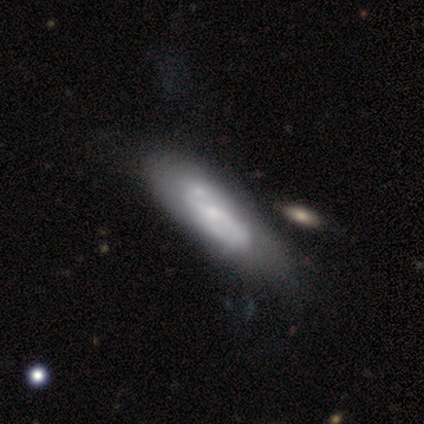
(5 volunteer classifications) This is clearly a featured or disk galaxy (80%). It is possibly viewed edge-on (50%, tied with no). Edge-on bulge: possibly boxy (50%, tied with rounded). Merging: likely minor disturbance (60%).